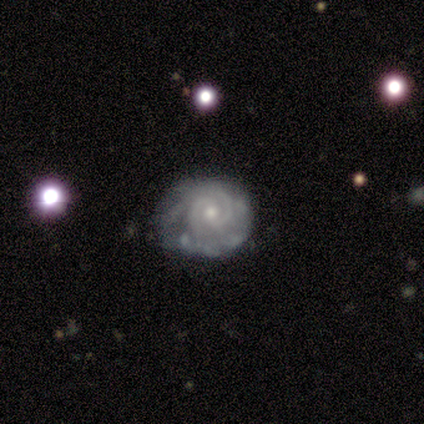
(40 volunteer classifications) Q: Smooth or featured?
A: featured or disk (90%); runner-up: smooth (5%)
Q: Edge-on disk?
A: no (94%); runner-up: yes (6%)
Q: Bar?
A: no (62%); runner-up: weak (32%)
Q: Spiral arms?
A: yes (91%); runner-up: no (9%)
Q: Spiral winding?
A: tight (87%); runner-up: medium (13%)
Q: Spiral arm count?
A: 2 (65%); runner-up: 3 (16%)
Q: Bulge size?
A: moderate (62%); runner-up: small (38%)
Q: Merging?
A: none (47%); runner-up: minor disturbance (39%)